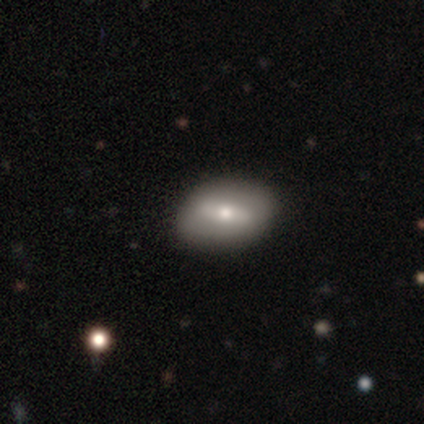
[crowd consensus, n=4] smooth_or_featured: smooth (p=0.50) [tied with: featured or disk p=0.50]
how_rounded: in between (p=1.00)
merging: none (p=0.75) [alt: minor disturbance p=0.25]